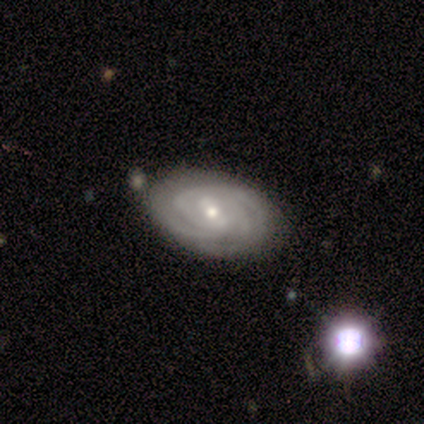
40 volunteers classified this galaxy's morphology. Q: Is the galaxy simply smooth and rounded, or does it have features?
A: featured or disk — 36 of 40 (90%).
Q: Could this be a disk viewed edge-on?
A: no — 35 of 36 (97%).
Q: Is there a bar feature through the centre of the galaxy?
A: weak — 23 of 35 (66%).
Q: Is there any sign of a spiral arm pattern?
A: yes — 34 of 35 (97%).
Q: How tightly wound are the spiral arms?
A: tight — 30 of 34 (88%).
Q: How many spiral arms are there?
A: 3 — 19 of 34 (56%).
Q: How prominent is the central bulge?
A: small — 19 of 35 (54%).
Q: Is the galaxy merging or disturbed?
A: none — 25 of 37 (68%).